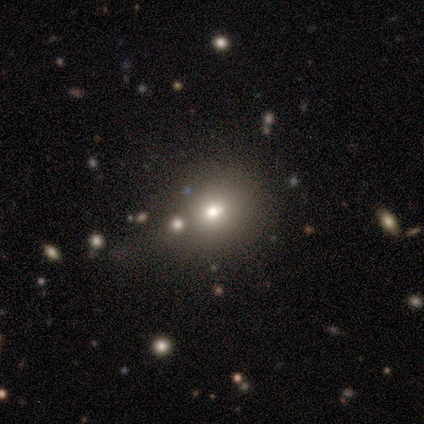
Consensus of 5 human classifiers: smooth-or-featured: smooth: 80% | star or artifact: 20% | featured or disk: 0%
  how-rounded: round: 75% | in between: 25% | cigar-shaped: 0%
  merging: none: 50% | minor disturbance: 25% | merger: 25% | major disturbance: 0%